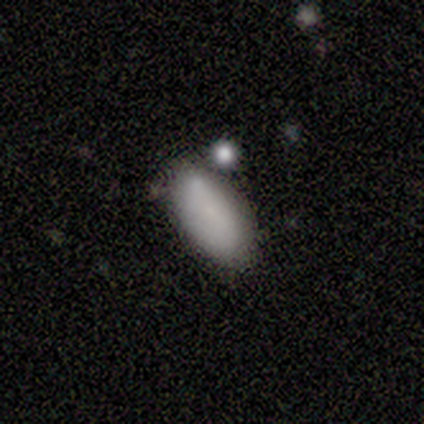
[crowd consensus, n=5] Overall: smooth (100%). How rounded: in between (100%). Merging: none (60%; minor disturbance 40%).